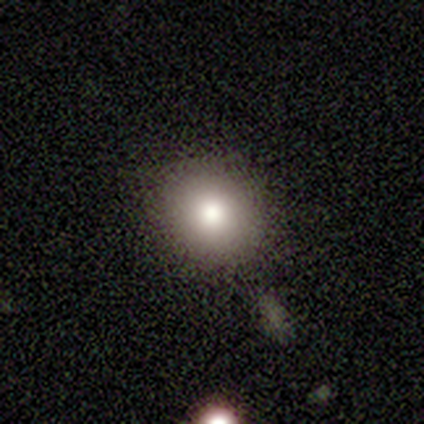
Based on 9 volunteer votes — Smooth or featured? 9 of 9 (100%) said smooth. How rounded? 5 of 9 (56%) said round. Merging? 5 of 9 (56%) said none.